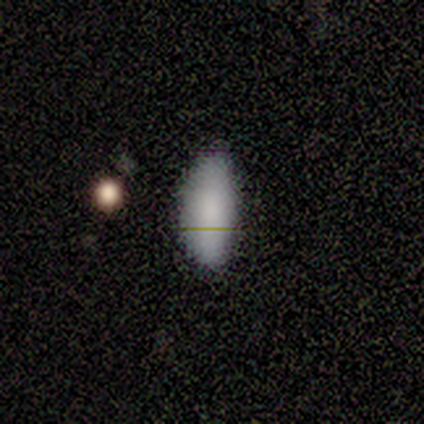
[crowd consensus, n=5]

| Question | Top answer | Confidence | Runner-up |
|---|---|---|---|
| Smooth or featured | smooth | 80% | featured or disk (20%) |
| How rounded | in between | 50% | tied: cigar-shaped (50%) |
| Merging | none | 60% | minor disturbance (40%) |